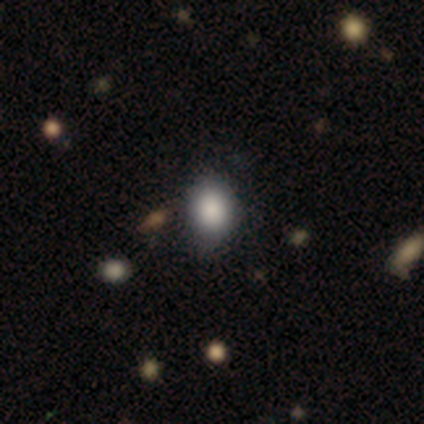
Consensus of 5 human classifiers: Smooth or featured: smooth — 80% (star or artifact — 20%)
How rounded: round — 50% (tied with in between — 50%)
Merging: none — 75% (minor disturbance — 25%)